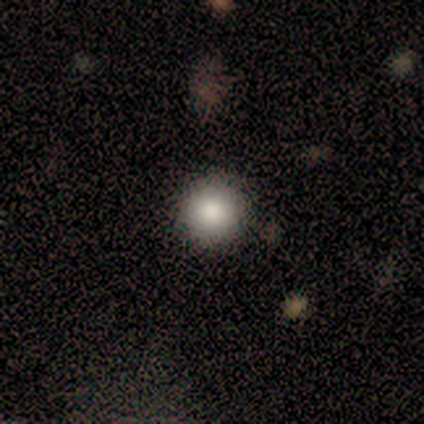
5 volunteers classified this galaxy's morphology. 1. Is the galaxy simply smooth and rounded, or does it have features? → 80% smooth, 20% star or artifact, 0% featured or disk.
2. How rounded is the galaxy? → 100% round, 0% in between, 0% cigar-shaped.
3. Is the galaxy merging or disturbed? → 50% none, 25% minor disturbance, 25% merger, 0% major disturbance.